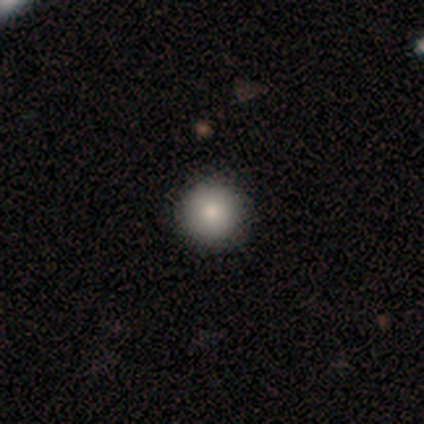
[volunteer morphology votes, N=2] Smooth or featured: smooth — 100%
How rounded: round — 100%
Merging: none — 100%